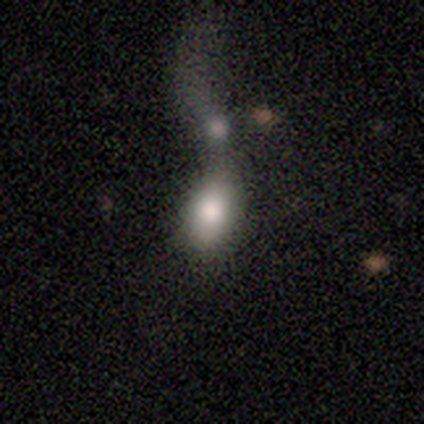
A smooth galaxy with no disk features (83%) that is in between round and cigar-shaped (100%). Merging: major disturbance (33%, tied with merger).